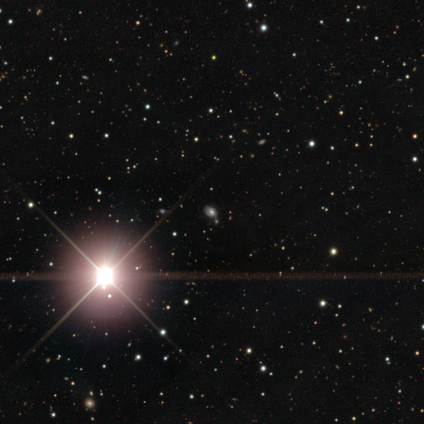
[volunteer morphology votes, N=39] Q: Smooth or featured?
A: star or artifact (85%); runner-up: featured or disk (10%)